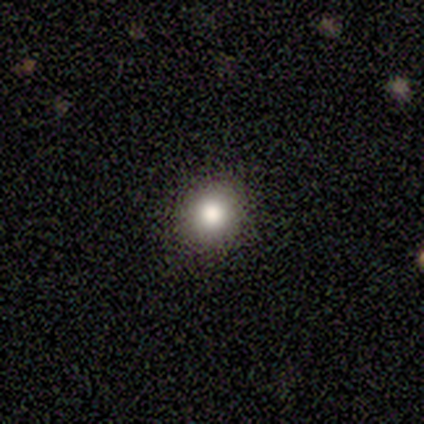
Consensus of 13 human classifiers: Q: Smooth or featured?
A: smooth (85%); runner-up: featured or disk (8%)
Q: How rounded?
A: round (82%); runner-up: in between (18%)
Q: Merging?
A: none (92%); runner-up: minor disturbance (8%)